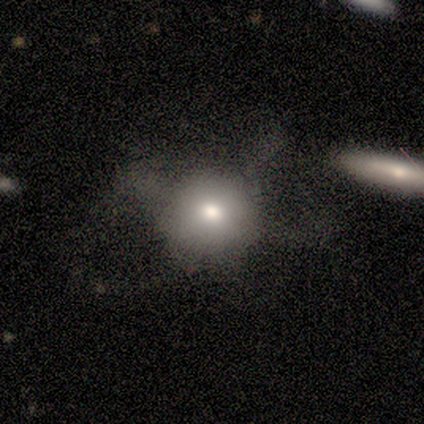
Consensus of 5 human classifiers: smooth_or_featured: smooth (p=0.80) [alt: featured or disk p=0.20]
how_rounded: round (p=1.00)
merging: major disturbance (p=0.60) [alt: none p=0.20]